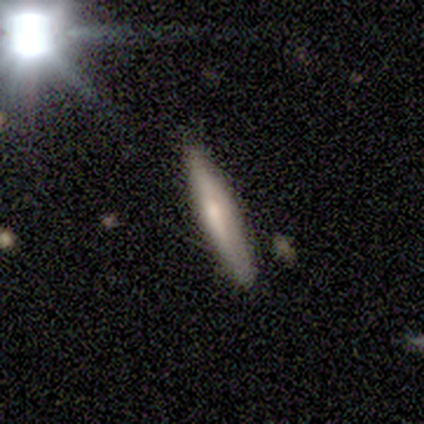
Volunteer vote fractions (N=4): Smooth or featured? featured or disk (75%)
Edge-on disk? yes (100%)
Edge-on bulge? rounded (67%)
Merging? none (50%, tied with minor disturbance)